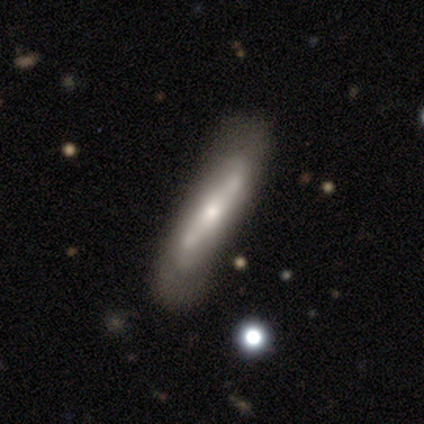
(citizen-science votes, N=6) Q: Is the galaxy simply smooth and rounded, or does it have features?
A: featured or disk — 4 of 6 (67%).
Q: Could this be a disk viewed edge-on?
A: yes — 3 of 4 (75%).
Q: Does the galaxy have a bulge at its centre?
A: rounded — 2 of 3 (67%).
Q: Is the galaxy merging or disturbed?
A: minor disturbance — 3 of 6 (50%).